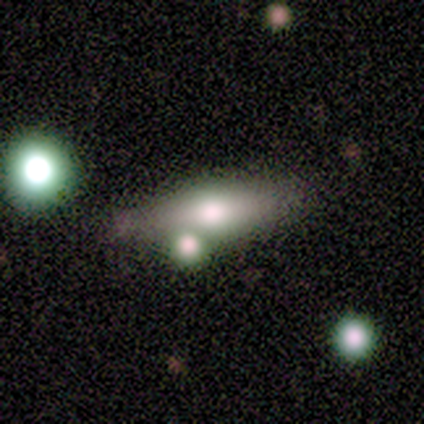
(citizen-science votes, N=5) Overall: smooth (60%; featured or disk 40%). How rounded: in between (67%; cigar-shaped 33%). Merging: none (60%; minor disturbance 40%).